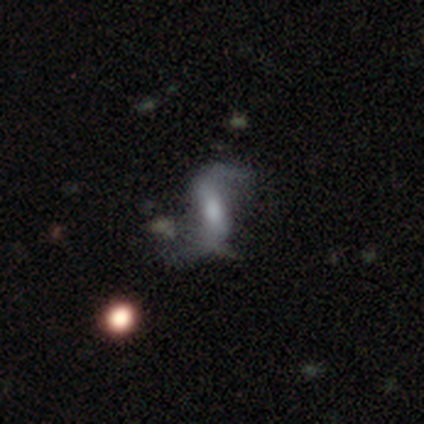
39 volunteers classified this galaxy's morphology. A featured or disk galaxy (82%) with a weak bar (45%), 2 (91%) loose (91%) spiral arms (79%) and a moderate central bulge (48%).

Vote fractions:
- Smooth or featured? featured or disk: 82% / smooth: 13% / star or artifact: 5%
- Edge-on disk? no: 91% / yes: 9%
- Bar? weak: 45% / strong: 38% / no: 17%
- Spiral arms? yes: 79% / no: 21%
- Spiral winding? loose: 91% / medium: 9% / tight: 0%
- Spiral arm count? 2: 91% / 1: 9% / 3: 0% / 4: 0% / more than 4: 0% / can't tell: 0%
- Bulge size? moderate: 48% / small: 38% / none: 10% / large: 3% / dominant: 0%
- Merging? none: 41% / minor disturbance: 27% / major disturbance: 22% / merger: 11%